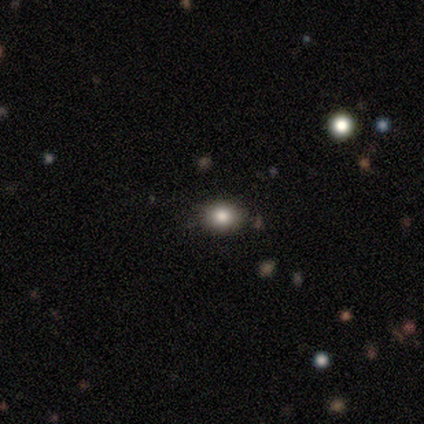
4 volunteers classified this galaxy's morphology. Smooth or featured: smooth — 50% (featured or disk — 25%)
How rounded: round — 50% (tied with in between — 50%)
Merging: none — 100%